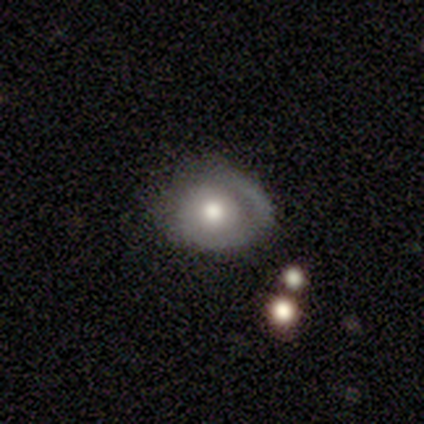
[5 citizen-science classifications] Overall: smooth (80%). How rounded: round (50%, tied with in between). Merging: major disturbance (60%; minor disturbance 40%).